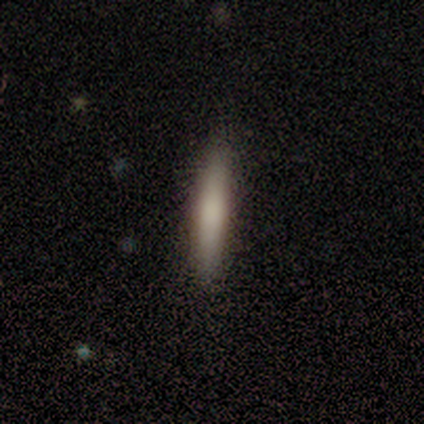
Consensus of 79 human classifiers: Smooth or featured: smooth — 76% (featured or disk — 18%)
How rounded: cigar-shaped — 95% (in between — 5%)
Merging: none — 51% (minor disturbance — 5%)